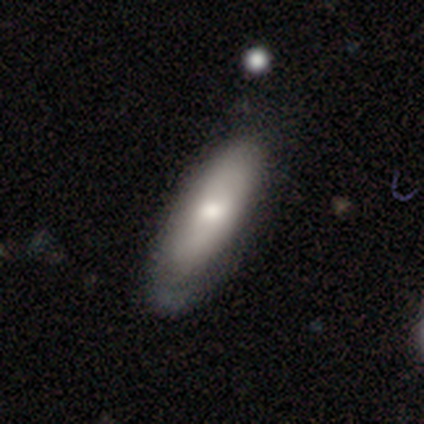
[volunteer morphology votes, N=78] smooth_or_featured: smooth (p=0.78) [alt: featured or disk p=0.17]
how_rounded: in between (p=0.70) [alt: cigar-shaped p=0.30]
merging: none (p=0.38) [alt: minor disturbance p=0.16]